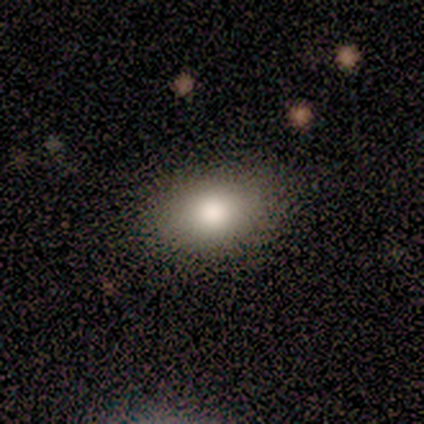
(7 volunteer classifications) A smooth galaxy with no disk features (86%) that is in between round and cigar-shaped (83%). Merging: none (86%).